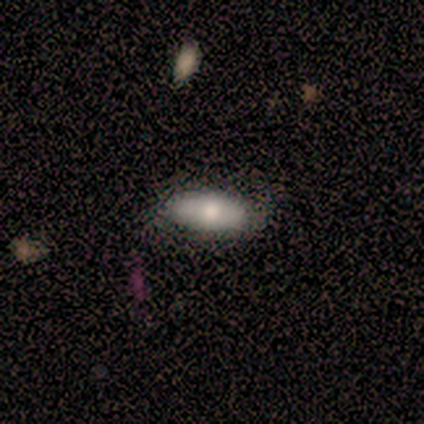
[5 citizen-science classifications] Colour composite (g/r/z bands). It shows a smooth galaxy with no disk features (60%) that is in between round and cigar-shaped (100%). Merging: none (80%).